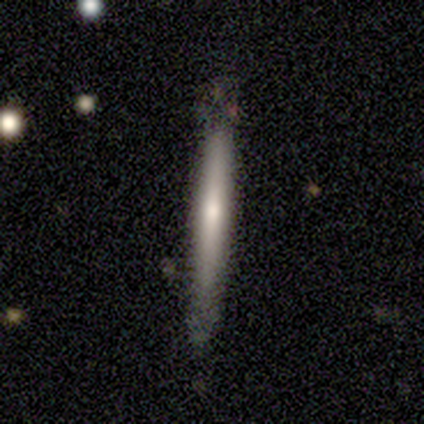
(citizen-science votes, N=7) Volunteers were most divided on "smooth or featured": smooth: 86%, featured or disk: 14%, star or artifact: 0%. More confident: how rounded — cigar-shaped (100%); merging — none (86%).